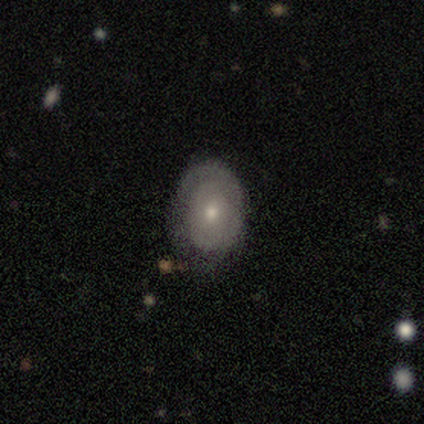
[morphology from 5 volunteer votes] Q: Smooth or featured?
A: smooth (80%); runner-up: featured or disk (20%)
Q: How rounded?
A: in between (75%); runner-up: round (25%)
Q: Merging?
A: none (80%); runner-up: minor disturbance (20%)